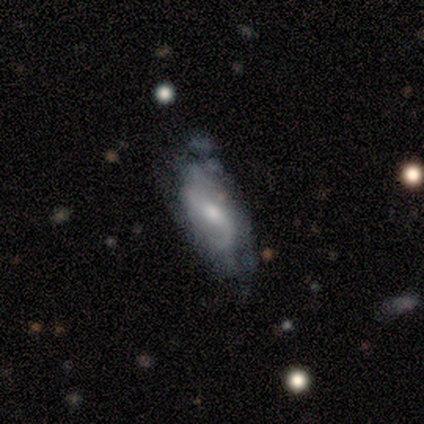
Q: Smooth or featured?
A: featured or disk (75%); runner-up: star or artifact (17%)
Q: Edge-on disk?
A: no (89%); runner-up: yes (11%)
Q: Bar?
A: weak (50%); runner-up: strong (25%)
Q: Spiral arms?
A: yes (88%); runner-up: no (12%)
Q: Spiral winding?
A: tight (43%); runner-up: medium (29%)
Q: Spiral arm count?
A: 2 (57%); runner-up: can't tell (29%)
Q: Bulge size?
A: moderate (50%); runner-up: small (38%)
Q: Merging?
A: minor disturbance (50%); runner-up: major disturbance (30%)